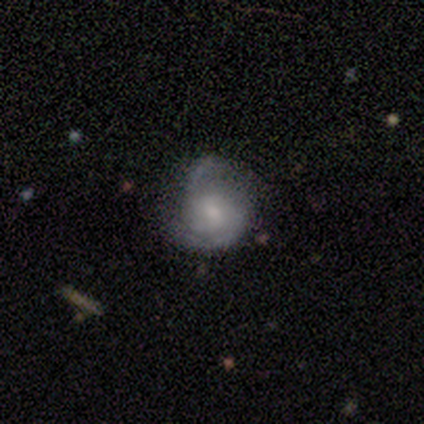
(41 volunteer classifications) This is likely a featured or disk galaxy (71%). It is clearly not viewed edge-on (97%). Bar: possibly no (57%). Spiral arm pattern: likely yes (75%). Spiral arm count: clearly 2 (81%). Spiral winding: possibly medium (52%). Central bulge: possibly moderate (57%). Merging: marginally none (32%).